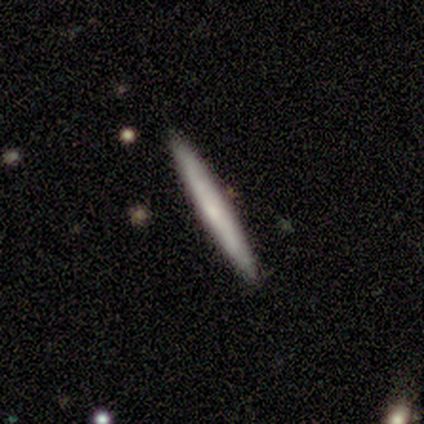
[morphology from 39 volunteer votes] This is likely a smooth galaxy (67%). How rounded: clearly cigar-shaped (100%). Merging: clearly none (95%).